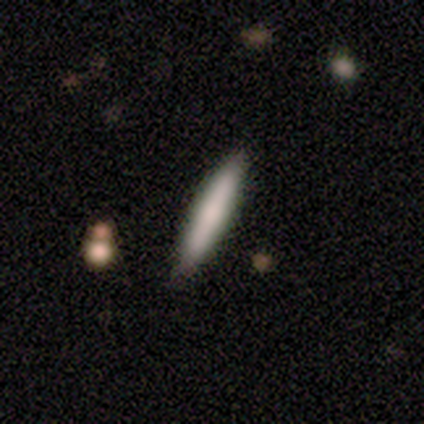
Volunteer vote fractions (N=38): Smooth or featured: smooth — 66% (featured or disk — 29%)
How rounded: cigar-shaped — 76% (in between — 24%)
Merging: none — 86% (minor disturbance — 11%)